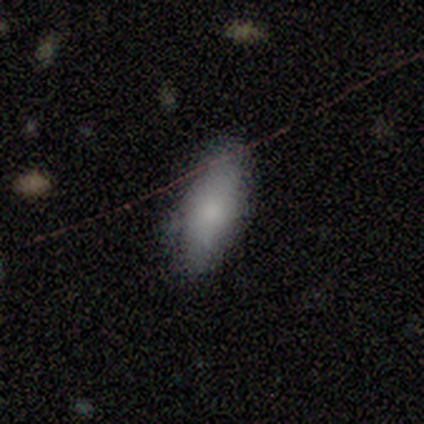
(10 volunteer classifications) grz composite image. It shows a smooth galaxy with no disk features (70%) that is in between round and cigar-shaped (71%). Merging: none (50%, tied with minor disturbance).